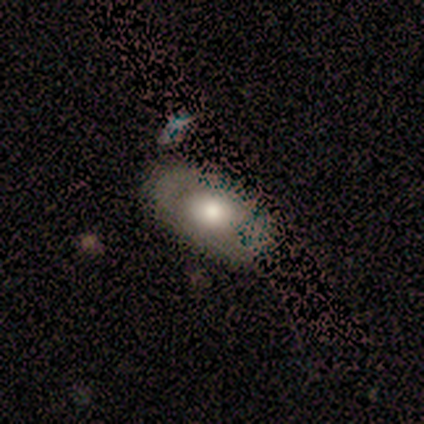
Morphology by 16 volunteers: A smooth galaxy with no disk features (81%) that is in between round and cigar-shaped (77%).

Vote fractions:
- Smooth or featured? smooth: 81% / star or artifact: 12% / featured or disk: 6%
- How rounded? in between: 77% / round: 23% / cigar-shaped: 0%
- Merging? none: 71% / minor disturbance: 21% / major disturbance: 7% / merger: 0%